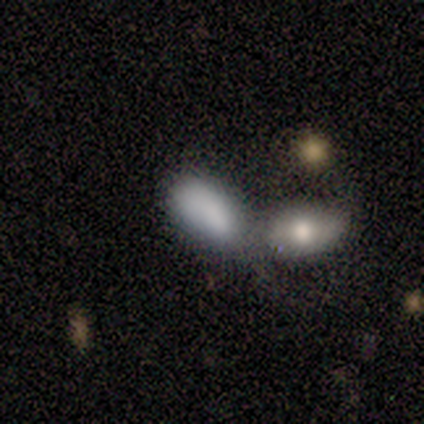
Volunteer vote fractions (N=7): Smooth or featured?
  - smooth: 86% *
  - star or artifact: 14%
  - featured or disk: 0%
How rounded?
  - in between: 100% *
  - round: 0%
  - cigar-shaped: 0%
Merging?
  - merger: 83% *
  - major disturbance: 17%
  - none: 0%
  - minor disturbance: 0%